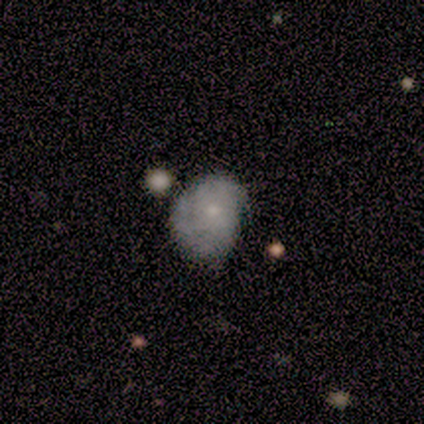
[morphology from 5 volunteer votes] Q: Smooth or featured?
A: smooth (40%); tied with: star or artifact (40%)
Q: How rounded?
A: in between (100%)
Q: Merging?
A: none (33%); tied with: minor disturbance (33%); major disturbance (33%)